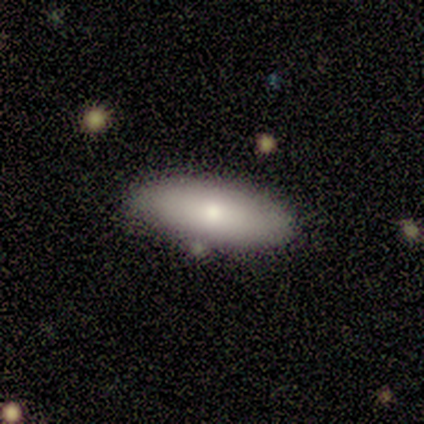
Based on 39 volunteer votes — A smooth galaxy with no disk features (82%) that is in between round and cigar-shaped (72%). Merging: none (82%).